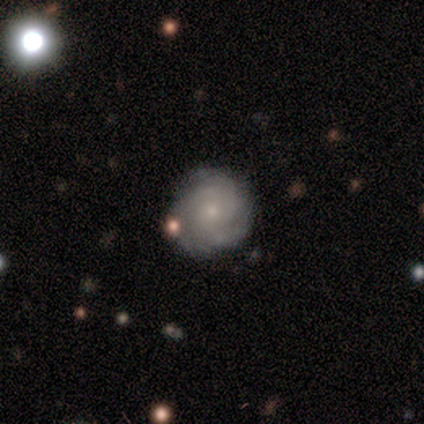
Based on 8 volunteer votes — A featured or disk galaxy (75%) with no bar (100%), 3 (80%) tight (40%, tied with medium) spiral arms (83%) and a small central bulge (67%). Merging: none (75%).